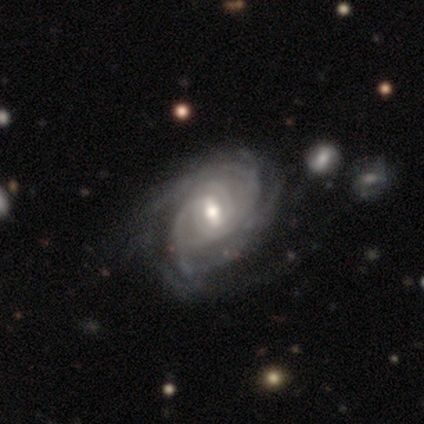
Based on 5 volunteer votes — featured or disk 100%, smooth 0%, star or artifact 0%. Down the decision tree: edge-on disk — no (100%); bar — weak (60%); spiral arms — yes (100%); spiral arm count — can't tell (60%); spiral winding — tight (60%); bulge size — moderate (80%); merging — none (40%, tied with major disturbance).